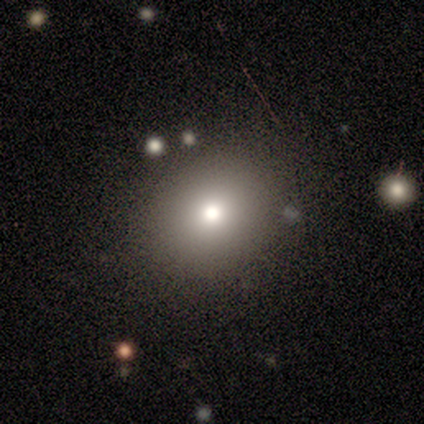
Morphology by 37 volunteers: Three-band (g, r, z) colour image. It shows a smooth galaxy with no disk features (59%) that is round (64%). Merging: none (86%).